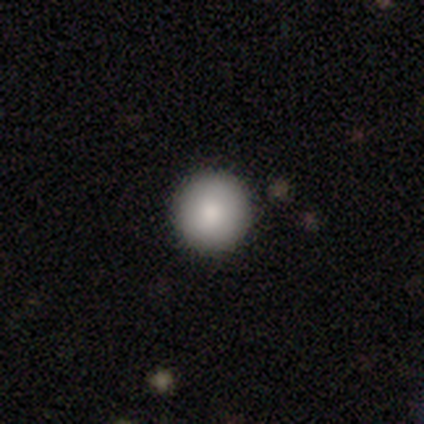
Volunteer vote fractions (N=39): Volunteers were most divided on "smooth or featured": smooth: 90%, featured or disk: 5%, star or artifact: 5%. More confident: how rounded — round (100%); merging — none (95%).